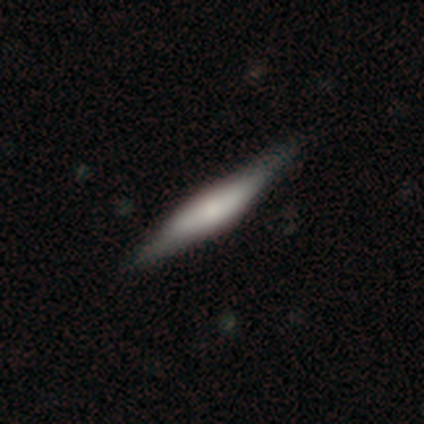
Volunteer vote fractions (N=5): Smooth or featured: featured or disk — 60% (smooth — 40%)
Edge-on disk: yes — 100%
Edge-on bulge: rounded — 100%
Merging: none — 80% (major disturbance — 20%)